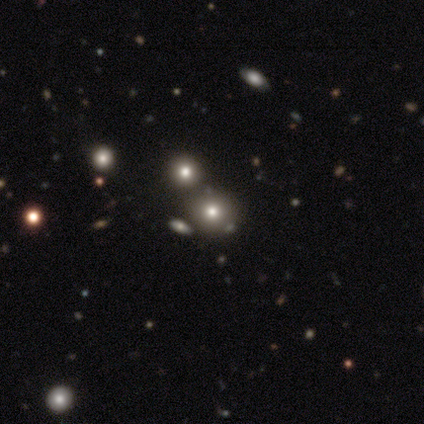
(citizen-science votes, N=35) This is likely a smooth galaxy (63%). How rounded: clearly round (86%). Merging: possibly merger (58%).